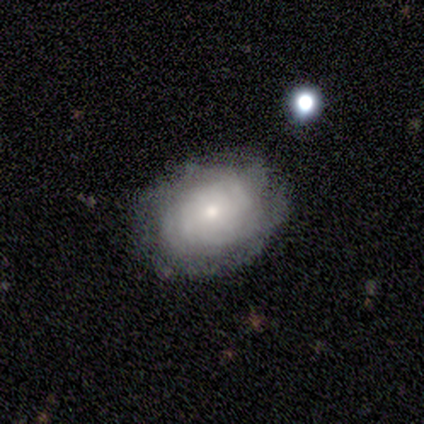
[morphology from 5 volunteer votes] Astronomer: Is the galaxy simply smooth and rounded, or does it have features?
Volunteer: featured or disk — 80%.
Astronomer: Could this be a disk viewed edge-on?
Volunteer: no — 75%.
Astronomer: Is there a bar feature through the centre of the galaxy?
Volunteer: no — 100%.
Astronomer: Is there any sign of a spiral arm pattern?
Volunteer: yes — 67%.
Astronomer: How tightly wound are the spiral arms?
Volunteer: tight — 100%.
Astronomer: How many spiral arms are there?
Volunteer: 4 — 100%.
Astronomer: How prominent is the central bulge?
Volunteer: small — 67%.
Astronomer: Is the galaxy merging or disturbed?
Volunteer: none — 80%.